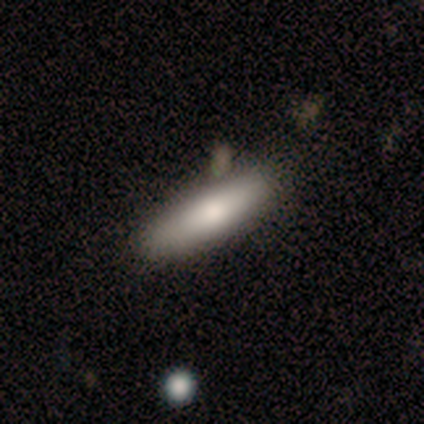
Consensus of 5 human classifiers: This appears to be a smooth galaxy with no disk features (100%) that is cigar-shaped (80%). Merging: none (60%).